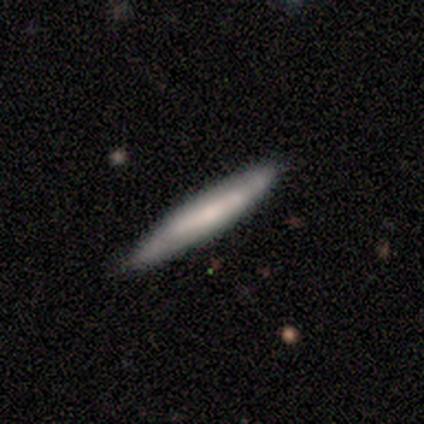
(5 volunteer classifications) A smooth galaxy with no disk features (80%) that is cigar-shaped (100%). Merging: none (100%).